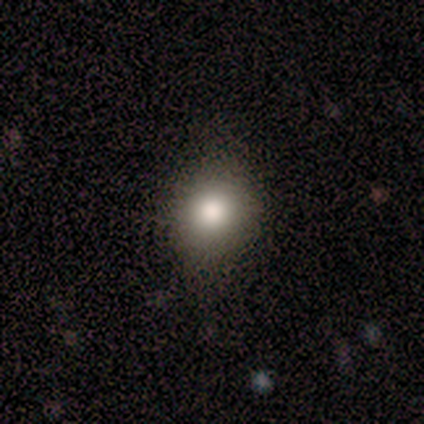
Smooth or featured: smooth — 80% (star or artifact — 20%)
How rounded: round — 75% (in between — 25%)
Merging: none — 100%